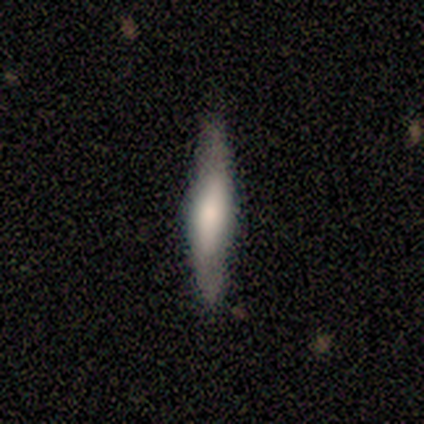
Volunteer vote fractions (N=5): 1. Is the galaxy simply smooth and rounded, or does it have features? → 80% featured or disk, 20% smooth, 0% star or artifact.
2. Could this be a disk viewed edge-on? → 100% yes, 0% no.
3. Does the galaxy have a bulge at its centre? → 75% rounded, 25% boxy, 0% none.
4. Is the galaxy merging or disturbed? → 80% none, 20% minor disturbance, 0% major disturbance, 0% merger.